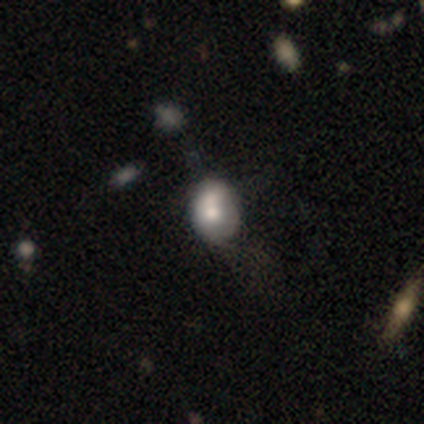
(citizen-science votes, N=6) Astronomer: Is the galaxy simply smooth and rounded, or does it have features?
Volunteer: smooth — 50%, tied with featured or disk at 50%.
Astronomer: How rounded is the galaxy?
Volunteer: in between — 67%.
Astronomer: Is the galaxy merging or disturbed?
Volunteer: none — 50% (runner-up: minor disturbance, 33%).